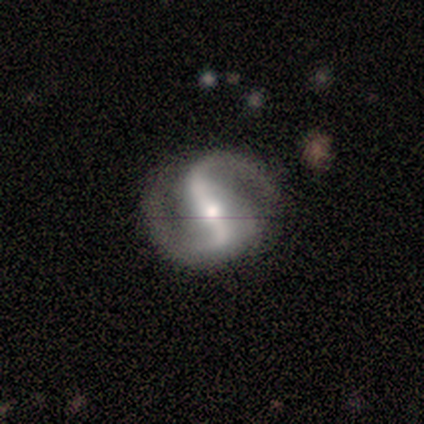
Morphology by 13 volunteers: A featured or disk galaxy (92%) with a strong bar (75%), 2 (100%) medium (58%) spiral arms (100%) and a moderate central bulge (50%).

Vote fractions:
- Smooth or featured? featured or disk: 92% / smooth: 8% / star or artifact: 0%
- Edge-on disk? no: 100% / yes: 0%
- Bar? strong: 75% / weak: 17% / no: 8%
- Spiral arms? yes: 100% / no: 0%
- Spiral winding? medium: 58% / loose: 33% / tight: 8%
- Spiral arm count? 2: 100% / 1: 0% / 3: 0% / 4: 0% / more than 4: 0% / can't tell: 0%
- Bulge size? moderate: 50% / small: 42% / none: 8% / dominant: 0% / large: 0%
- Merging? none: 85% / minor disturbance: 8% / major disturbance: 8% / merger: 0%